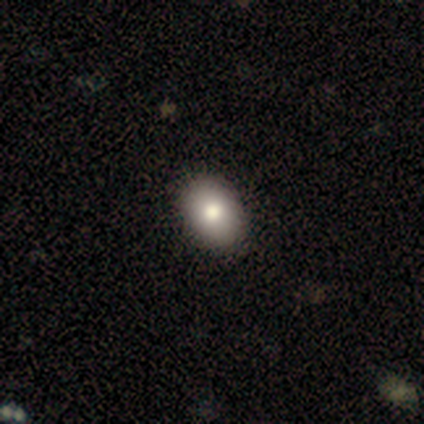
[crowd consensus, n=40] Volunteers were most divided on "smooth or featured": smooth: 88%, featured or disk: 10%, star or artifact: 2%. More confident: how rounded — in between (94%); merging — none (90%).